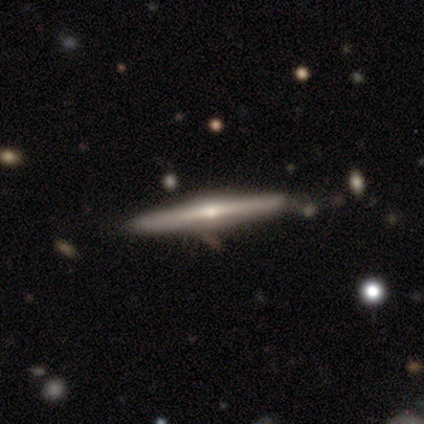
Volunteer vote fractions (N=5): Smooth or featured?
  - featured or disk: 80% *
  - smooth: 20%
  - star or artifact: 0%
Edge-on disk?
  - yes: 100% *
  - no: 0%
Edge-on bulge?
  - rounded: 100% *
  - boxy: 0%
  - none: 0%
Merging?
  - none: 100% *
  - minor disturbance: 0%
  - major disturbance: 0%
  - merger: 0%